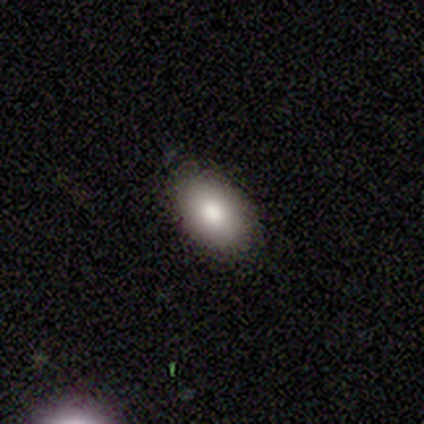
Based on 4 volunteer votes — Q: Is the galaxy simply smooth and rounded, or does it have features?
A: smooth — 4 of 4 (100%).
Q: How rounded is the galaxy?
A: in between — 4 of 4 (100%).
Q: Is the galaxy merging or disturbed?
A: none — 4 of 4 (100%).